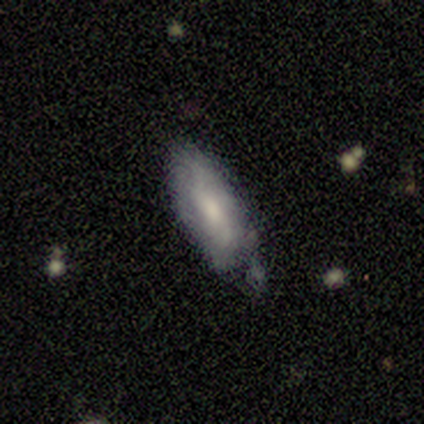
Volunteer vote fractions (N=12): Smooth or featured: smooth — 75% (featured or disk — 25%)
How rounded: in between — 67% (cigar-shaped — 33%)
Merging: none — 50% (minor disturbance — 42%)